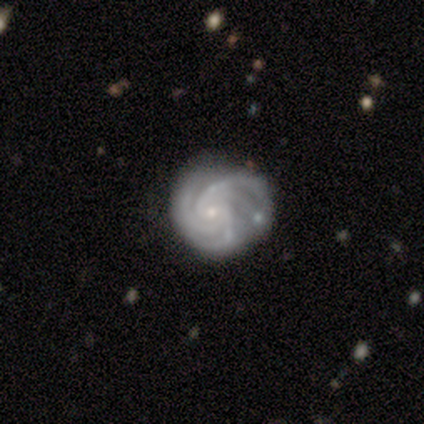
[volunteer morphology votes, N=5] type=featured or disk (100%); edge-on=no (100%); bar=no (60%); spiral arms=yes (100%); winding=tight (100%); arm count=4 (60%); bulge=small (80%); merging=none (80%).